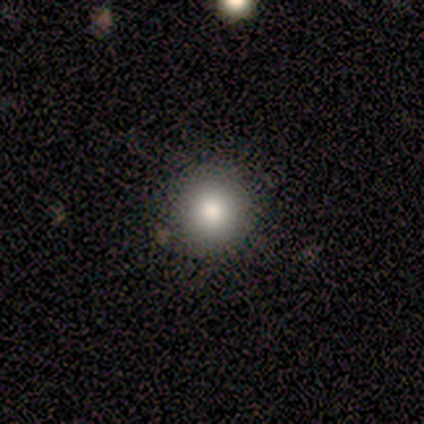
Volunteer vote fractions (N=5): A smooth galaxy with no disk features (100%) that is round (100%). Merging: none (80%).